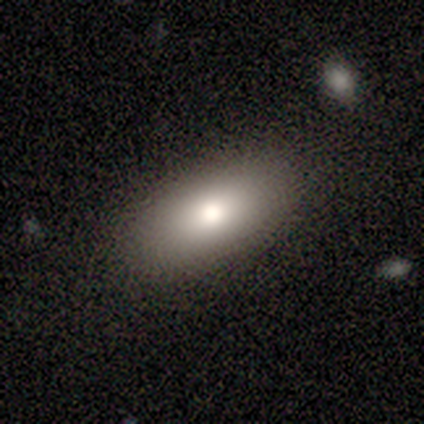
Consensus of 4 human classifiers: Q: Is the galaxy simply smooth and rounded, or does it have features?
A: smooth — 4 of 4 (100%).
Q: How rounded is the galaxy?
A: in between — 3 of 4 (75%).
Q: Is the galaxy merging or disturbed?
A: none — 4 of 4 (100%).